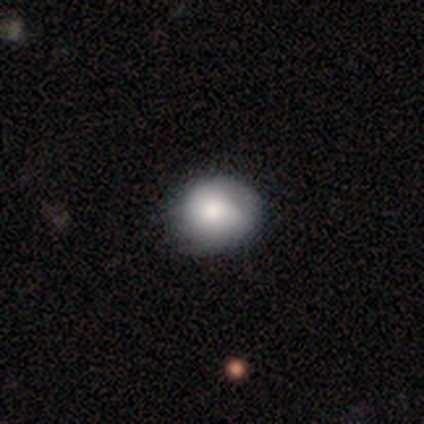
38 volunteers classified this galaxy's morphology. Volunteers were most divided on "merging": none: 38%, minor disturbance: 27%, major disturbance: 5%, merger: 3%. More confident: smooth or featured — smooth (74%); how rounded — round (71%).